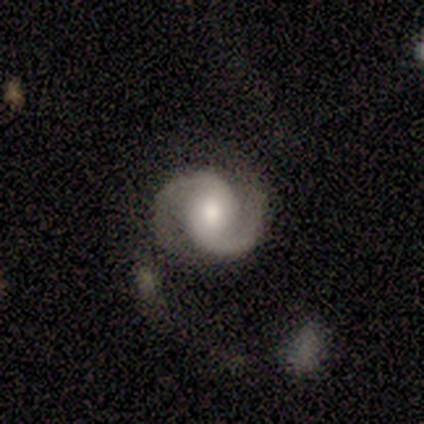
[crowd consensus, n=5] This appears to be a featured or disk galaxy (100%) with no bar (60%), 2 (100%) medium (40%, tied with loose) spiral arms (100%) and a moderate central bulge (60%). Merging: none (40%, tied with minor disturbance).